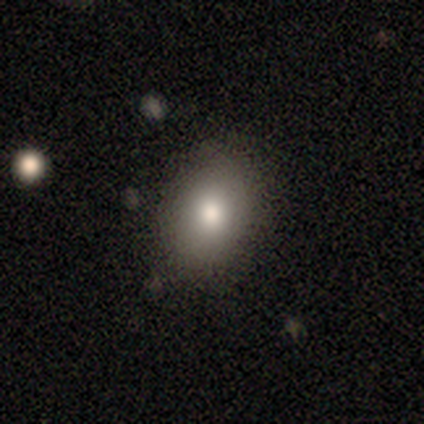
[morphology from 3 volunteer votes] Q: Smooth or featured?
A: smooth (100%)
Q: How rounded?
A: in between (100%)
Q: Merging?
A: none (100%)